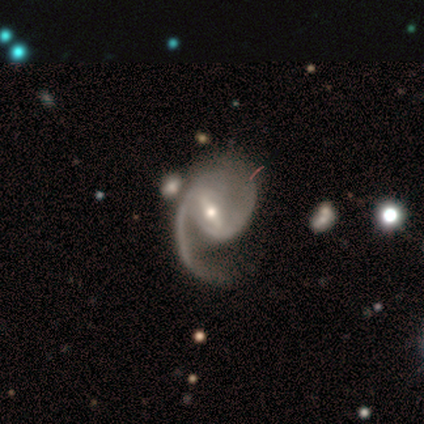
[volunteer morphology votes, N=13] Smooth or featured?
  - featured or disk: 100% *
  - smooth: 0%
  - star or artifact: 0%
Edge-on disk?
  - no: 100% *
  - yes: 0%
Bar?
  - strong: 54% *
  - weak: 46%
  - no: 0%
Spiral arms?
  - yes: 100% *
  - no: 0%
Spiral winding?
  - medium: 54% *
  - loose: 46%
  - tight: 0%
Spiral arm count?
  - 2: 69% *
  - 1: 31%
  - 3: 0%
  - 4: 0%
  - more than 4: 0%
  - can't tell: 0%
Bulge size?
  - moderate: 54% *
  - small: 46%
  - dominant: 0%
  - large: 0%
  - none: 0%
Merging?
  - none: 38% *
  - major disturbance: 23%
  - merger: 23%
  - minor disturbance: 15%